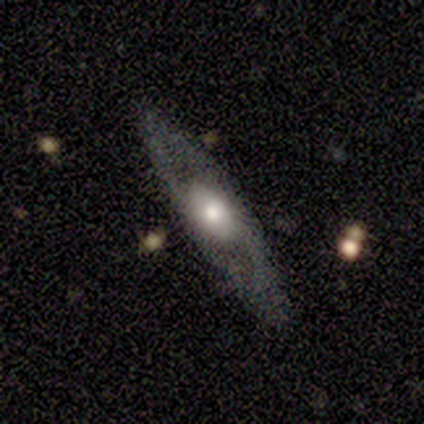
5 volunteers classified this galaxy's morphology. Volunteers were most divided on "smooth or featured": featured or disk: 60%, smooth: 40%, star or artifact: 0%. More confident: edge-on bulge — rounded (100%); merging — none (100%); edge-on disk — yes (67%).